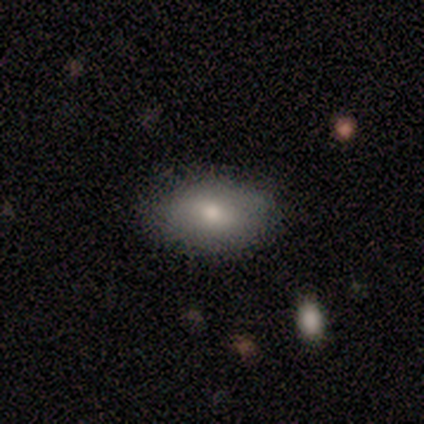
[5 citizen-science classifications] This appears to be a smooth galaxy with no disk features (100%) that is in between round and cigar-shaped (100%). Merging: none (80%).